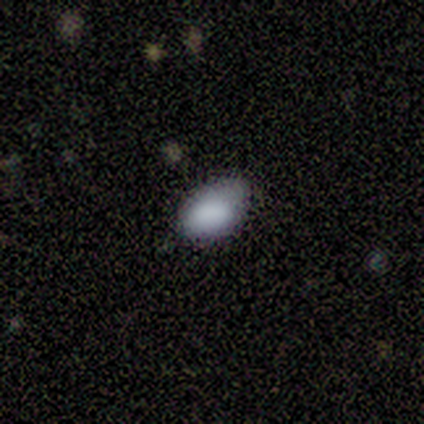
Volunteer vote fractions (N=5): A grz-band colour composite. It shows a smooth galaxy with no disk features (80%) that is in between round and cigar-shaped (100%). Merging: minor disturbance (75%).